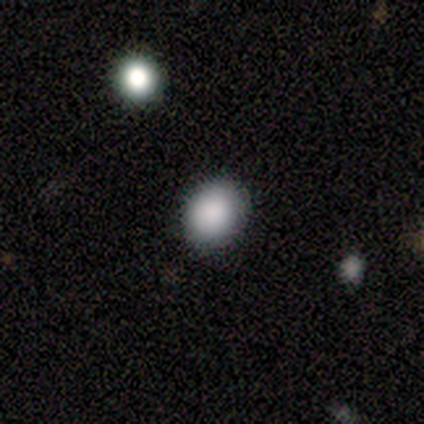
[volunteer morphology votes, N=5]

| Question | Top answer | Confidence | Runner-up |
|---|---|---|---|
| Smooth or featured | smooth | 80% | star or artifact (20%) |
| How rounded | round | 75% | in between (25%) |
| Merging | none | 100% | — |